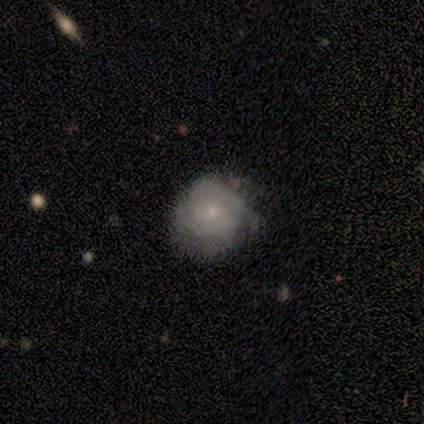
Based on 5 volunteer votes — A featured or disk galaxy (80%) with no bar (100%), 3 (50%) tight (50%, tied with medium) spiral arms (100%) and a small central bulge (100%). Merging: minor disturbance (60%).